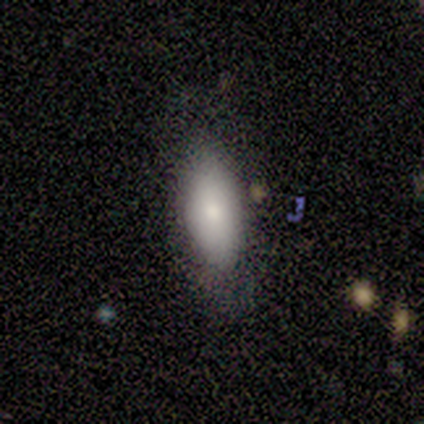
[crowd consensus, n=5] Smooth or featured? 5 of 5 (100%) said smooth. How rounded? 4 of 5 (80%) said in between. Merging? 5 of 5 (100%) said none.